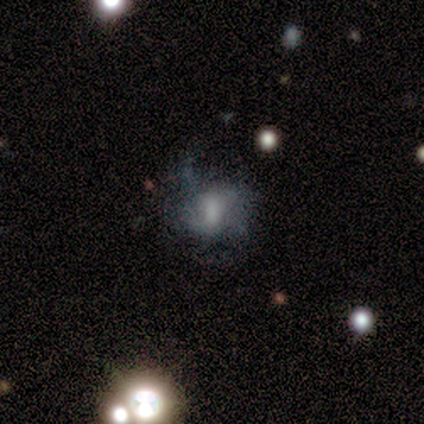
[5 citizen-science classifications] Smooth or featured? 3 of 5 (60%) said featured or disk. Edge-on disk? 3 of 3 (100%) said no. Bar? 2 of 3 (67%) said no. Spiral arms? 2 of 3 (67%) said yes. Spiral winding? 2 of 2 (100%) said loose. Spiral arm count? 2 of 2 (100%) said can't tell. Bulge size? 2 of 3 (67%) said large. Merging? 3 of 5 (60%) said major disturbance.